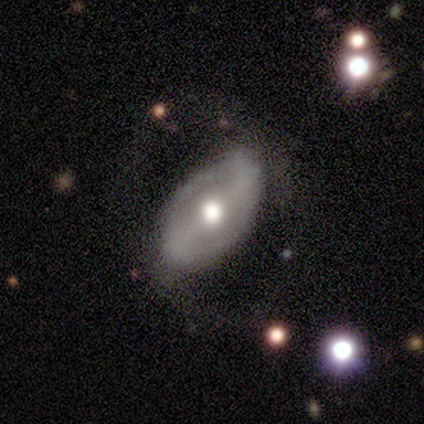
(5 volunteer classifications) Q: Smooth or featured?
A: featured or disk (80%); runner-up: smooth (20%)
Q: Edge-on disk?
A: no (100%)
Q: Bar?
A: weak (50%); runner-up: strong (25%)
Q: Spiral arms?
A: yes (50%); tied with: no (50%)
Q: Spiral winding?
A: medium (50%); tied with: loose (50%)
Q: Spiral arm count?
A: 1 (50%); tied with: 2 (50%)
Q: Bulge size?
A: moderate (75%); runner-up: large (25%)
Q: Merging?
A: none (60%); runner-up: minor disturbance (20%)